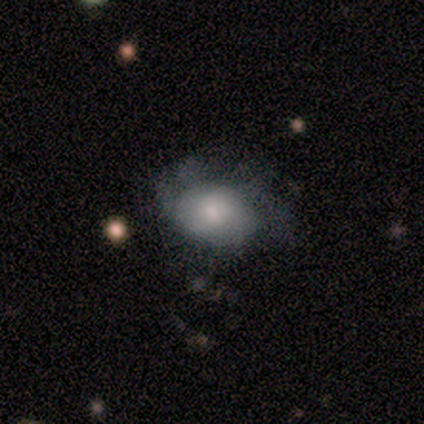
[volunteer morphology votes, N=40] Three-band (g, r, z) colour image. It shows a smooth galaxy with no disk features (68%) that is in between round and cigar-shaped (78%). Merging: none (53%).